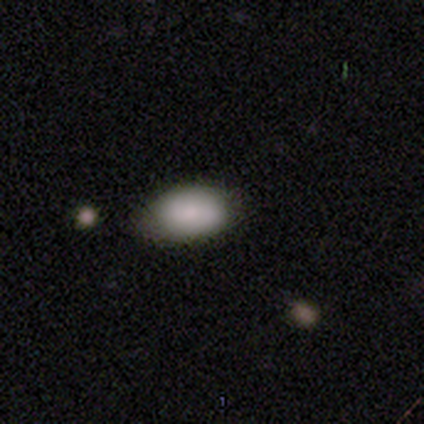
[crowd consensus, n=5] A smooth galaxy with no disk features (60%) that is in between round and cigar-shaped (100%). Merging: none (100%).